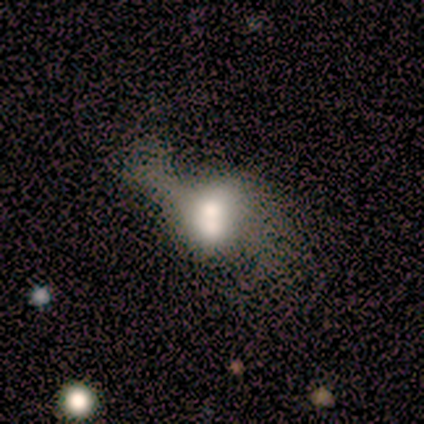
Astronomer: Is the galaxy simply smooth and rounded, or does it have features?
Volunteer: featured or disk — 60% (runner-up: smooth, 40%).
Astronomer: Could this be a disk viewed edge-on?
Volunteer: no — 100%.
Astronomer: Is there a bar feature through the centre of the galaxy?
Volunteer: no — 67%.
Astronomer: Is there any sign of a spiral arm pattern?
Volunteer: yes — 100%.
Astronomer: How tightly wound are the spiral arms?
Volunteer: loose — 100%.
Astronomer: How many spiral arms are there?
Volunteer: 2 — 67%.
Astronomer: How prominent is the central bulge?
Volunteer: moderate — 67%.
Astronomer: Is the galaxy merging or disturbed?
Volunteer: none — 40%, tied with major disturbance at 40%.